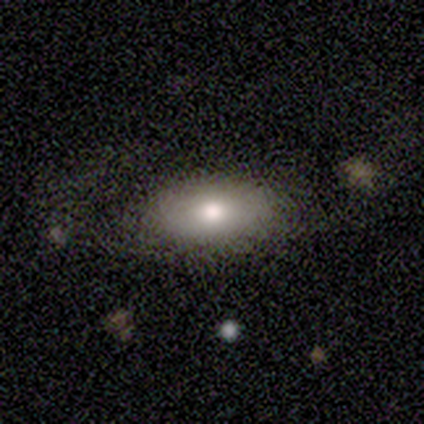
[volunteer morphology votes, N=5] A smooth galaxy with no disk features (80%) that is in between round and cigar-shaped (100%).

Vote fractions:
- Smooth or featured? smooth: 80% / featured or disk: 20% / star or artifact: 0%
- How rounded? in between: 100% / round: 0% / cigar-shaped: 0%
- Merging? none: 60% / minor disturbance: 20% / major disturbance: 20% / merger: 0%